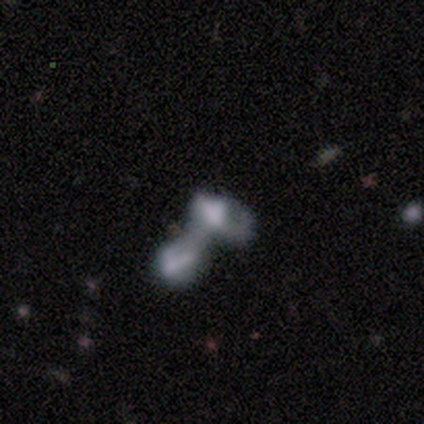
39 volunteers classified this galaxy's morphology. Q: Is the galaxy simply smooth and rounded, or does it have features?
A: featured or disk — 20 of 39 (51%).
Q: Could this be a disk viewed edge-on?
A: no — 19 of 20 (95%).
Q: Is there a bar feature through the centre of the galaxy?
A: no — 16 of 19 (84%).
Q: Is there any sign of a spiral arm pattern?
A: no — 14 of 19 (74%).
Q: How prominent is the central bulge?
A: none — 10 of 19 (53%).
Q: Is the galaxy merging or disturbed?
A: merger — 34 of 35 (97%).